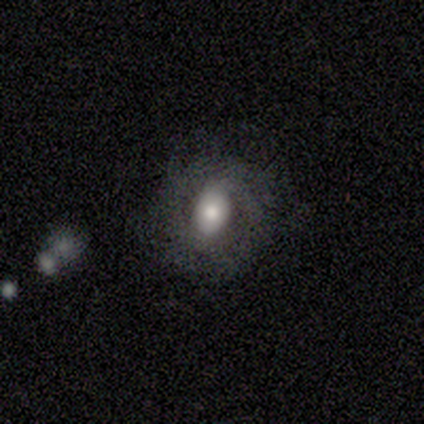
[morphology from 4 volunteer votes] Smooth or featured? 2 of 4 (50%) said smooth. How rounded? 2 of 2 (100%) said in between. Merging? 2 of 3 (67%) said major disturbance.